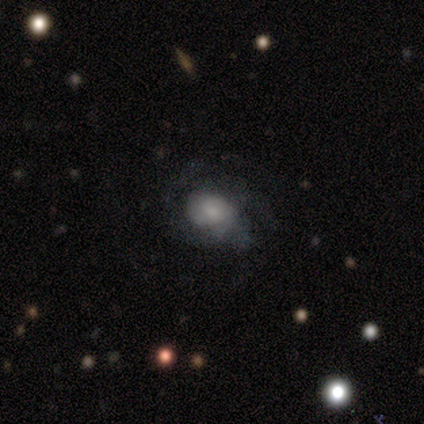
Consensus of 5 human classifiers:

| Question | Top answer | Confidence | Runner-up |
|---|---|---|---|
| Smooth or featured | featured or disk | 80% | star or artifact (20%) |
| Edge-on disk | no | 100% | — |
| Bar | weak | 50% | tied: no (50%) |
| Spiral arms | yes | 75% | no (25%) |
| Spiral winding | medium | 67% | tight (33%) |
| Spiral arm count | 3 | 67% | 1 (33%) |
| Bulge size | dominant | 25% | tied: large (25%), small (25%), none (25%) |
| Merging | none | 50% | minor disturbance (25%) |